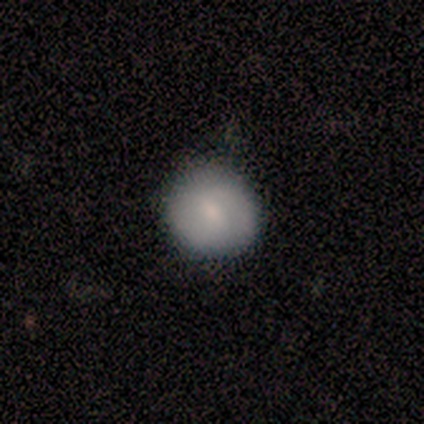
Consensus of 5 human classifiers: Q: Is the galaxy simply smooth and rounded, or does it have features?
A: smooth — 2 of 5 (40%, tied with featured or disk).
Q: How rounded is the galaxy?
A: round — 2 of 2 (100%).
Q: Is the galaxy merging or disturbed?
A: none — 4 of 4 (100%).